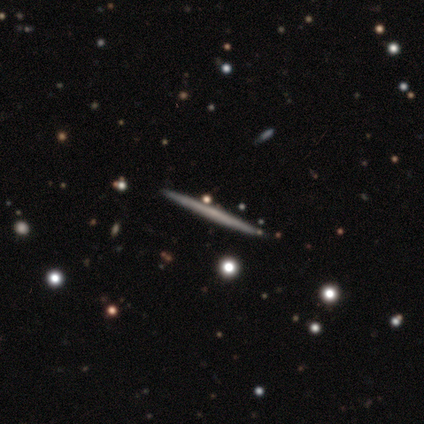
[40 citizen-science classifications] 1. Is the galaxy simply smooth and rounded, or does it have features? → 68% featured or disk, 25% smooth, 8% star or artifact.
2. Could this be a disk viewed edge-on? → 96% yes, 4% no.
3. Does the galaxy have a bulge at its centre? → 88% none, 8% rounded, 4% boxy.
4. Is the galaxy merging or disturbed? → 62% none, 3% merger, 0% minor disturbance, 0% major disturbance.